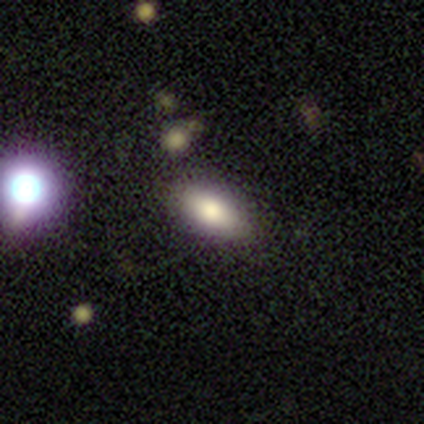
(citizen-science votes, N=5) A smooth galaxy with no disk features (80%) that is in between round and cigar-shaped (50%, tied with cigar-shaped).

Vote fractions:
- Smooth or featured? smooth: 80% / featured or disk: 20% / star or artifact: 0%
- How rounded? in between: 50% (tied) / cigar-shaped: 50% (tied) / round: 0%
- Merging? none: 60% / minor disturbance: 40% / major disturbance: 0% / merger: 0%